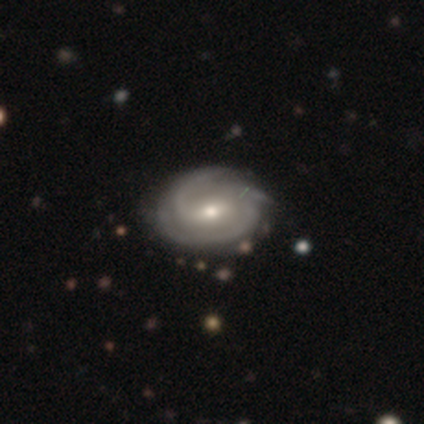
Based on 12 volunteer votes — smooth-or-featured: featured or disk: 75% | smooth: 25% | star or artifact: 0%
  disk-edge-on: no: 100% | yes: 0%
    bar: strong: 44% | weak: 33% | no: 22%
    has-spiral-arms: yes: 89% | no: 11%
      spiral-winding: tight: 62% | medium: 38% | loose: 0%
      spiral-arm-count: 3: 62% | 2: 38% | 1: 0% | 4: 0% | more than 4: 0% | can't tell: 0%
    bulge-size: small: 56% | moderate: 44% | dominant: 0% | large: 0% | none: 0%
  merging: none: 50% | minor disturbance: 42% | major disturbance: 8% | merger: 0%